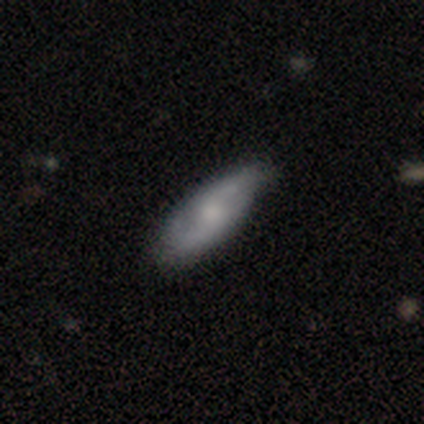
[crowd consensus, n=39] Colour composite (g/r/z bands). It shows a featured or disk galaxy (59%) with no bar (59%), 2 (75%) loose (56%) spiral arms (94%) and a moderate central bulge (53%). Merging: none (61%).